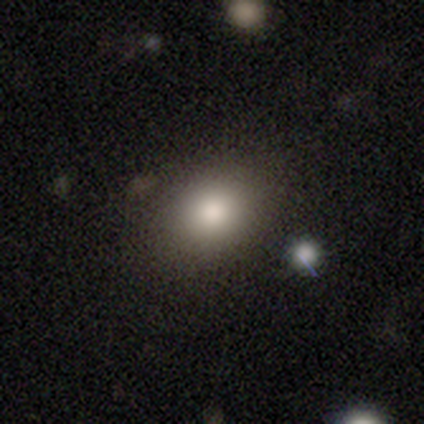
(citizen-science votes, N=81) Smooth or featured: smooth — 85% (star or artifact — 9%)
How rounded: in between — 67% (round — 33%)
Merging: none — 55% (minor disturbance — 7%)